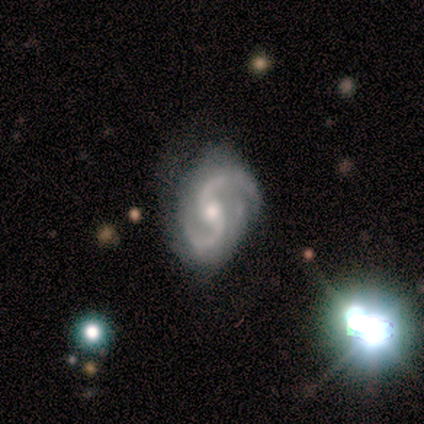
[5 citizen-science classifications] Smooth or featured? featured or disk (100%)
Edge-on disk? no (100%)
Bar? no (80%)
Spiral arms? yes (100%)
Spiral winding? medium (80%)
Spiral arm count? 2 (100%)
Bulge size? moderate (80%)
Merging? none (40%, tied with minor disturbance)